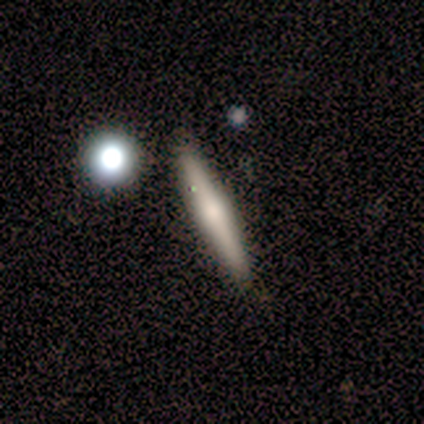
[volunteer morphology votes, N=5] A featured or disk galaxy (80%) viewed edge-on (100%) with a rounded central bulge (100%).

Vote fractions:
- Smooth or featured? featured or disk: 80% / smooth: 20% / star or artifact: 0%
- Edge-on disk? yes: 100% / no: 0%
- Edge-on bulge? rounded: 100% / boxy: 0% / none: 0%
- Merging? none: 80% / minor disturbance: 20% / major disturbance: 0% / merger: 0%